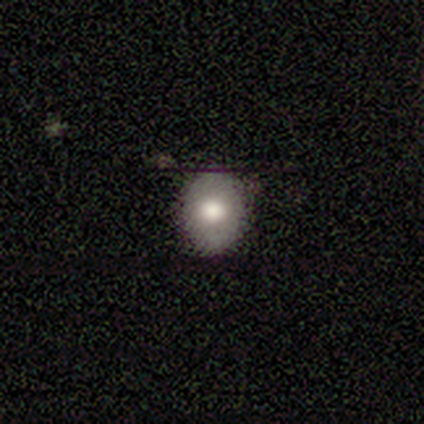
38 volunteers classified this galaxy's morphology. Smooth or featured?
  - smooth: 55% *
  - featured or disk: 26%
  - star or artifact: 18%
How rounded?
  - in between: 52% *
  - round: 48%
  - cigar-shaped: 0%
Merging?
  - none: 87% *
  - minor disturbance: 10%
  - major disturbance: 3%
  - merger: 0%